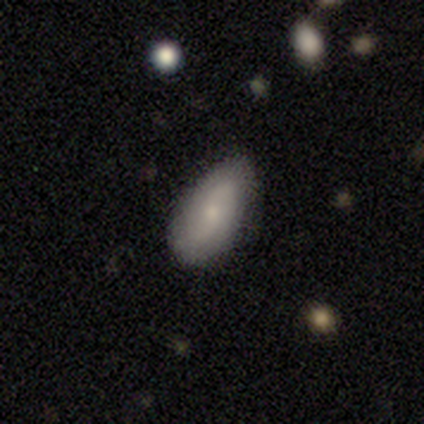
Volunteers were most divided on "bar": weak: 57%, no: 43%, strong: 0%. Remaining: spiral arms — yes (100%); bulge size — small (86%); edge-on disk — no (78%); smooth or featured — featured or disk (75%); spiral arm count — 2 (71%); merging — none (64%); spiral winding — loose (43%).